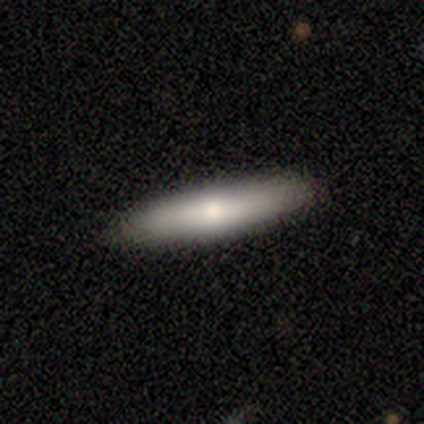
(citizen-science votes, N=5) smooth 60%, star or artifact 40%, featured or disk 0%. Down the decision tree: how rounded — in between (67%); merging — none (100%).